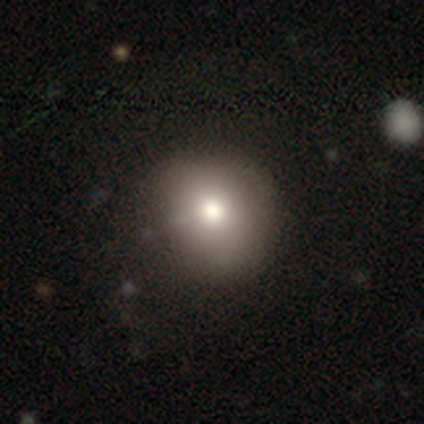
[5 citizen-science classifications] A smooth galaxy with no disk features (80%) that is round (100%). Merging: none (80%).